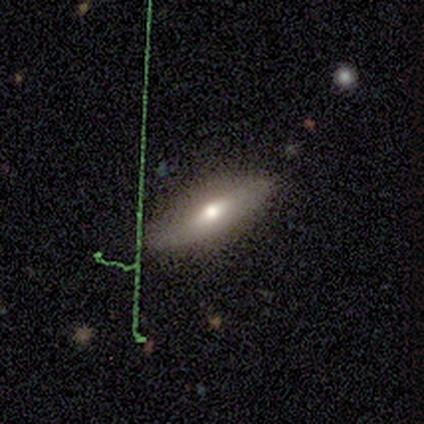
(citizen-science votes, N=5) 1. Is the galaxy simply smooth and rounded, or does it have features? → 80% smooth, 20% featured or disk, 0% star or artifact.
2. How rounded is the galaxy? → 75% in between, 25% cigar-shaped, 0% round.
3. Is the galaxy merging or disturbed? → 80% none, 20% minor disturbance, 0% major disturbance, 0% merger.